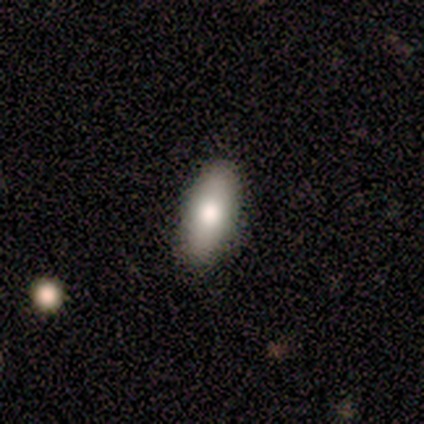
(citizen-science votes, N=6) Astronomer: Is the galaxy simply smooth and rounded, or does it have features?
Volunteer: smooth — 83%.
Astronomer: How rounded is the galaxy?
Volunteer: in between — 100%.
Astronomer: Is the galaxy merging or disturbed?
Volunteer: none — 80%.